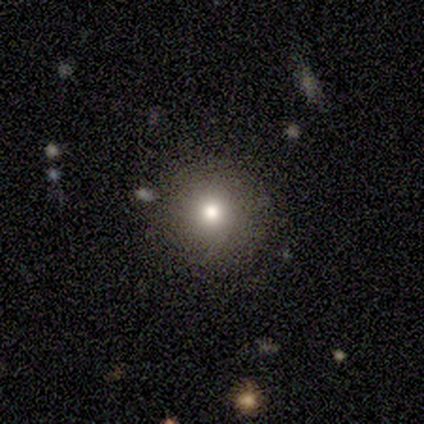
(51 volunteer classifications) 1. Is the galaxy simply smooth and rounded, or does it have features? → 78% smooth, 14% featured or disk, 8% star or artifact.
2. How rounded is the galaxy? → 100% round, 0% in between, 0% cigar-shaped.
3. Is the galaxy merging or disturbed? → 91% none, 4% minor disturbance, 2% major disturbance, 2% merger.